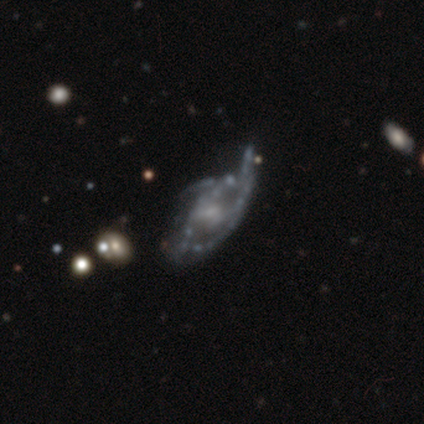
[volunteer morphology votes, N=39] Smooth or featured: featured or disk — 90% (star or artifact — 8%)
Edge-on disk: no — 94% (yes — 6%)
Bar: no — 58% (weak — 36%)
Spiral arms: yes — 70% (no — 30%)
Spiral winding: medium — 48% (loose — 39%)
Spiral arm count: can't tell — 39% (2 — 35%)
Bulge size: small — 48% (none — 33%)
Merging: none — 31% (minor disturbance — 28%)